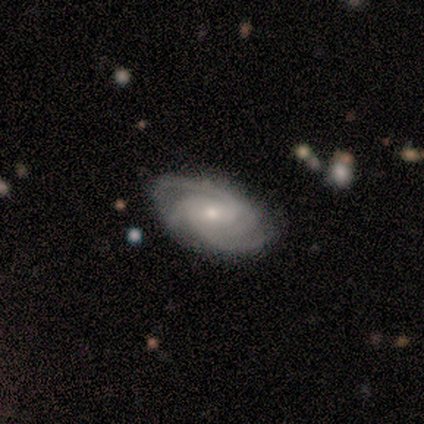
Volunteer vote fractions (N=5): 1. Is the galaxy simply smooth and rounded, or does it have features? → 100% featured or disk, 0% smooth, 0% star or artifact.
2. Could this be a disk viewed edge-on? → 100% no, 0% yes.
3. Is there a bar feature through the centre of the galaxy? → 60% weak, 40% no, 0% strong.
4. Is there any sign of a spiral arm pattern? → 100% yes, 0% no.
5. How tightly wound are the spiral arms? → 60% tight, 40% medium, 0% loose.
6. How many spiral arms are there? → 40% 3 (tied), 40% 4 (tied), 20% 2, 0% 1, 0% more than 4, 0% can't tell.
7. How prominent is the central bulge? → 60% small, 20% moderate, 20% none, 0% dominant, 0% large.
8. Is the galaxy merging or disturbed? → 80% none, 20% minor disturbance, 0% major disturbance, 0% merger.